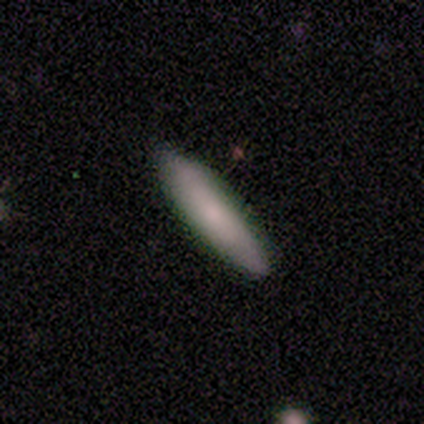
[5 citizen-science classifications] Smooth or featured? 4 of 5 (80%) said smooth. How rounded? 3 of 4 (75%) said cigar-shaped. Merging? 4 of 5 (80%) said none.